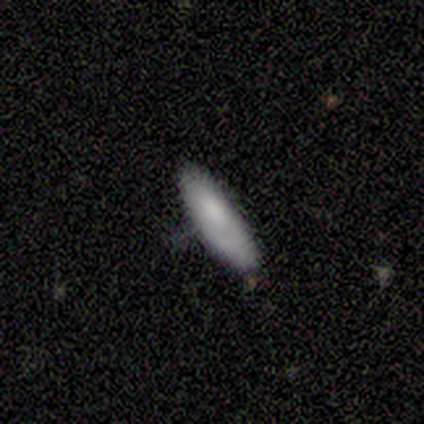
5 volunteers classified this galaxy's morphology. Smooth or featured? smooth (80%)
How rounded? in between (75%)
Merging? none (80%)